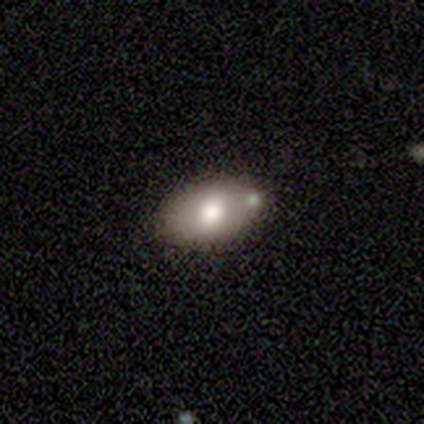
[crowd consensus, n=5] Q: Smooth or featured?
A: smooth (40%); tied with: featured or disk (40%)
Q: How rounded?
A: in between (100%)
Q: Merging?
A: merger (100%)